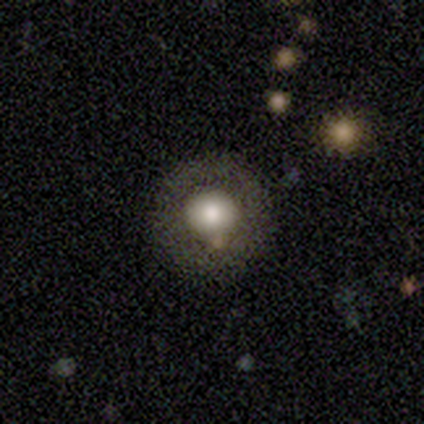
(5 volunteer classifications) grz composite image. It shows a smooth galaxy with no disk features (40%, tied with star or artifact) that is round (100%). Merging: none (100%).